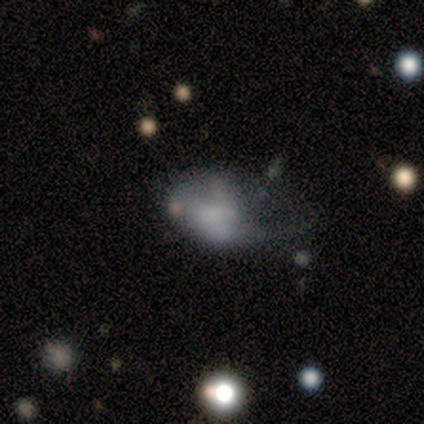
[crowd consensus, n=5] Smooth or featured: smooth — 60% (featured or disk — 20%)
How rounded: round — 67% (in between — 33%)
Merging: major disturbance — 50% (none — 25%)